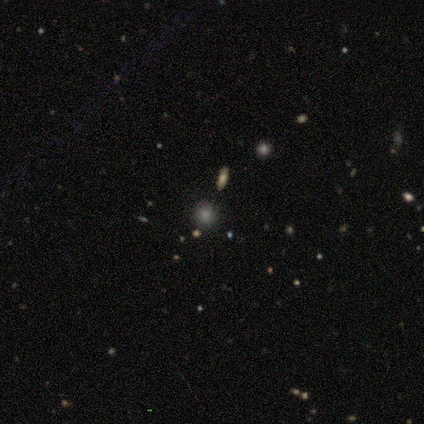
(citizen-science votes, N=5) A star or artifact, not a galaxy (60%).

Vote fractions:
- Smooth or featured? star or artifact: 60% / smooth: 40% / featured or disk: 0%